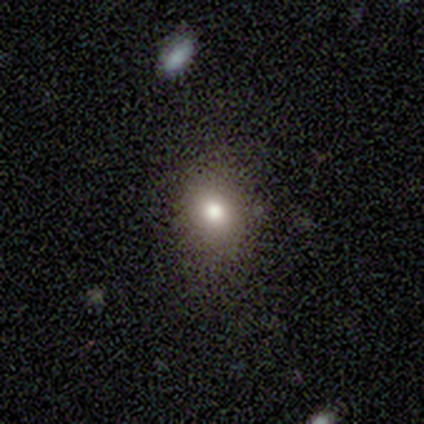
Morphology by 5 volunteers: A smooth galaxy with no disk features (40%, tied with star or artifact) that is round (100%). Merging: none (67%).